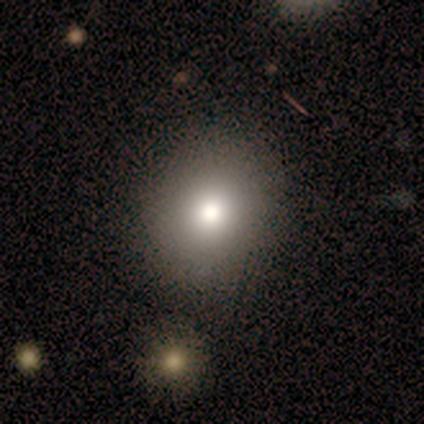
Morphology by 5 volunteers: Smooth or featured: smooth — 80% (star or artifact — 20%)
How rounded: round — 100%
Merging: none — 100%